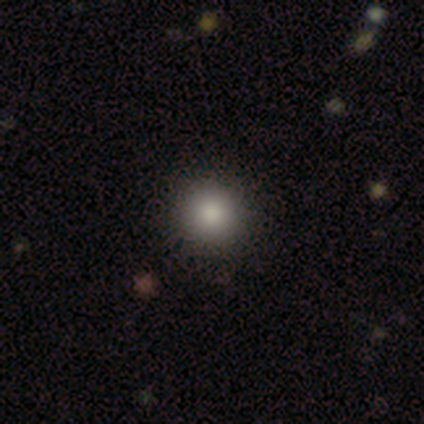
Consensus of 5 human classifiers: smooth-or-featured: smooth: 100% | featured or disk: 0% | star or artifact: 0%
  how-rounded: round: 60% | in between: 40% | cigar-shaped: 0%
  merging: none: 80% | minor disturbance: 20% | major disturbance: 0% | merger: 0%